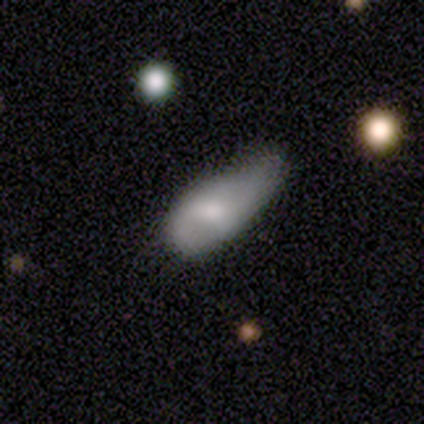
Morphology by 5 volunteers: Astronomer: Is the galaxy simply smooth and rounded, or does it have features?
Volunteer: smooth — 40%, tied with featured or disk at 40%.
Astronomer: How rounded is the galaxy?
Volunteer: in between — 100%.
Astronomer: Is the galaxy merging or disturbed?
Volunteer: minor disturbance — 50%.